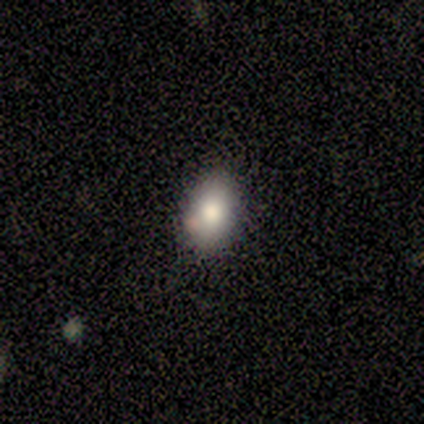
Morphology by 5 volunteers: A smooth galaxy with no disk features (80%) that is round (50%, tied with in between). Merging: none (75%).